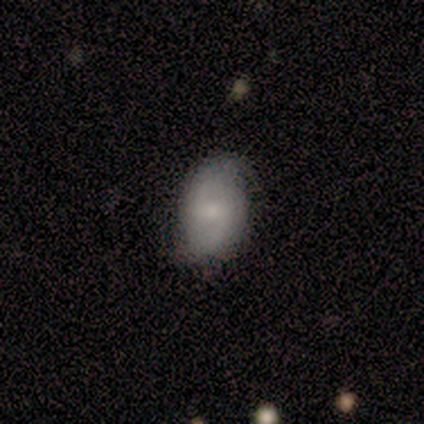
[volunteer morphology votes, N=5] type=smooth (60%); roundness=in between (100%); merging=none (80%).